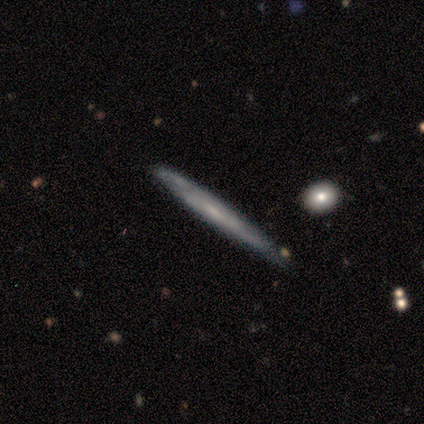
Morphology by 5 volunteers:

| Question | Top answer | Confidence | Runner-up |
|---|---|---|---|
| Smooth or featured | featured or disk | 60% | smooth (40%) |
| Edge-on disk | yes | 100% | — |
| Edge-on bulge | rounded | 67% | none (33%) |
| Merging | none | 100% | — |